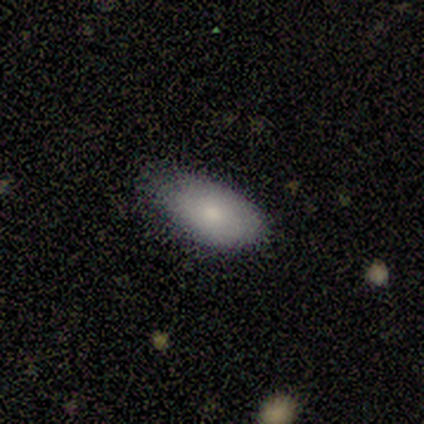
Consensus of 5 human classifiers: Morphology: type=smooth (80%); roundness=in between (75%); merging=none (60%).